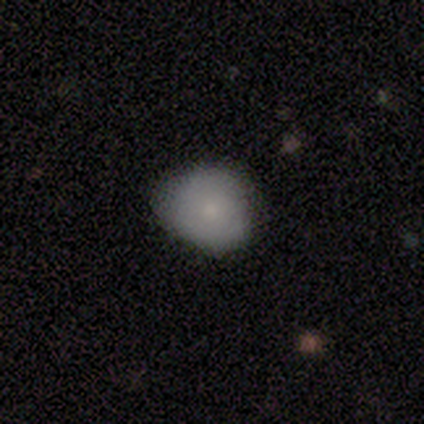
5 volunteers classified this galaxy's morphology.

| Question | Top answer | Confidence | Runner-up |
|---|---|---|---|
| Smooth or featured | smooth | 80% | star or artifact (20%) |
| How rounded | round | 50% | tied: in between (50%) |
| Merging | minor disturbance | 75% | none (25%) |